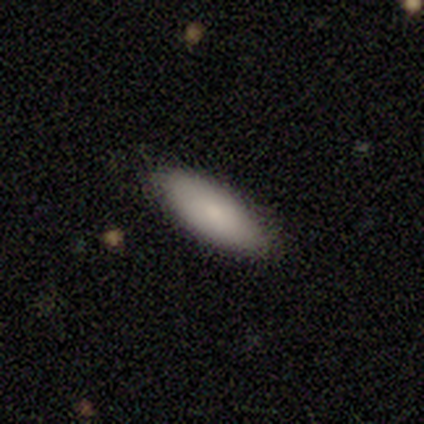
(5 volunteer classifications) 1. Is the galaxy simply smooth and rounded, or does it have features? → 80% smooth, 20% featured or disk, 0% star or artifact.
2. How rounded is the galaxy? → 100% in between, 0% round, 0% cigar-shaped.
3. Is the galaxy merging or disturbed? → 80% none, 20% minor disturbance, 0% major disturbance, 0% merger.